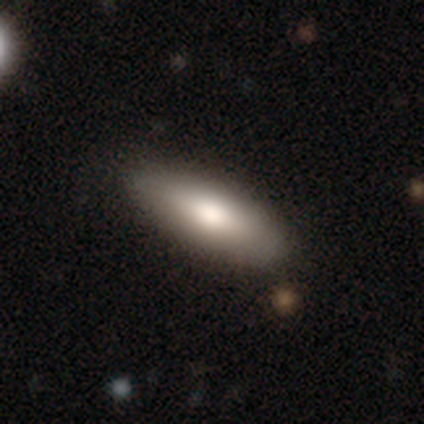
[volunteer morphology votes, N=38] Smooth or featured? smooth (79%)
How rounded? in between (73%)
Merging? none (89%)